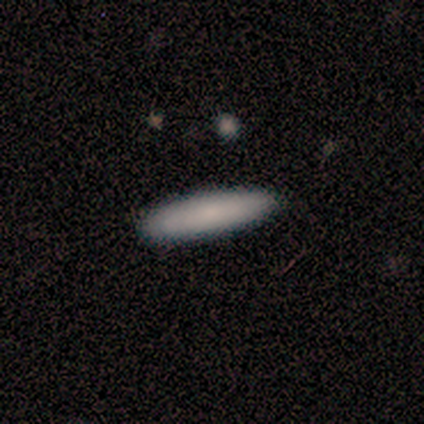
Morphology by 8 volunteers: Smooth or featured? 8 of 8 (100%) said smooth. How rounded? 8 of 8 (100%) said cigar-shaped. Merging? 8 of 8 (100%) said none.